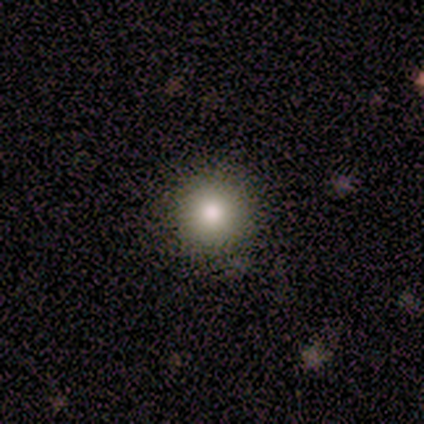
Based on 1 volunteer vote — This is clearly a smooth galaxy (100%). How rounded: clearly round (100%). Merging: clearly none (100%).